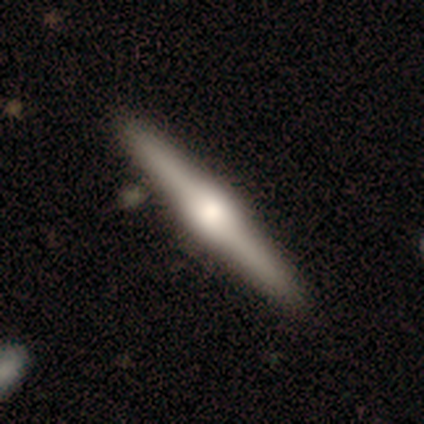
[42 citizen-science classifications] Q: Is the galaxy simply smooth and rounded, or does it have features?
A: featured or disk — 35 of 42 (83%).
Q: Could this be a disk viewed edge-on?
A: yes — 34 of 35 (97%).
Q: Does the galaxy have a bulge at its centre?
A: rounded — 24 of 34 (71%).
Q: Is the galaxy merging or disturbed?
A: none — 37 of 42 (88%).